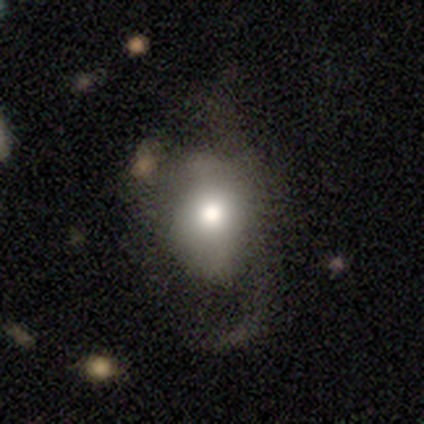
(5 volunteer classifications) Volunteers were most divided on "merging" (2-way tie): minor disturbance: 40%, major disturbance: 40%, merger: 20%, none: 0%. More confident: smooth or featured — smooth (80%); how rounded — in between (75%).